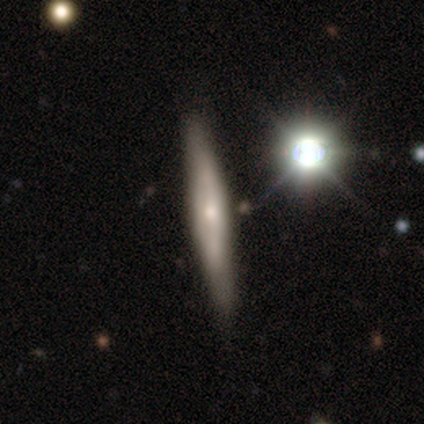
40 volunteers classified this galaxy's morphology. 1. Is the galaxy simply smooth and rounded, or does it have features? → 57% featured or disk, 32% smooth, 10% star or artifact.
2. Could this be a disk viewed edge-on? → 78% yes, 22% no.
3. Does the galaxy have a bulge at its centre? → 61% rounded, 39% none, 0% boxy.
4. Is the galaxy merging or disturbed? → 83% none, 14% minor disturbance, 3% major disturbance, 0% merger.